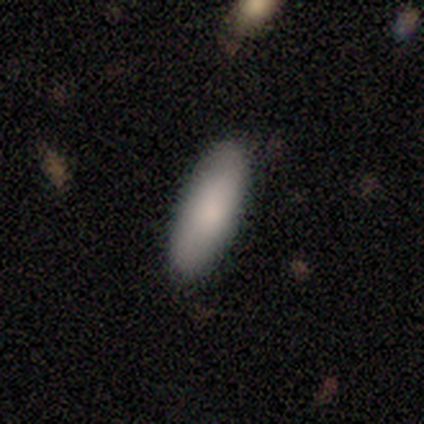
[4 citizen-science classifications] Smooth or featured?
  - smooth: 100% *
  - featured or disk: 0%
  - star or artifact: 0%
How rounded?
  - in between: 100% *
  - round: 0%
  - cigar-shaped: 0%
Merging?
  - none: 50% * (tied)
  - minor disturbance: 50% * (tied)
  - major disturbance: 0%
  - merger: 0%